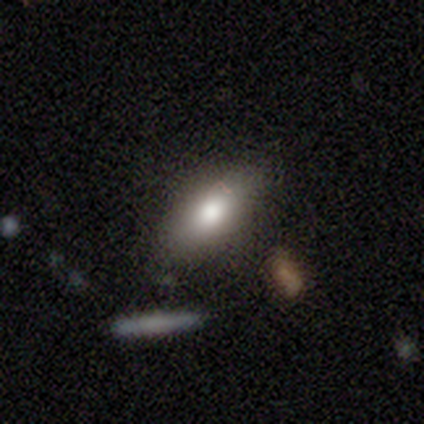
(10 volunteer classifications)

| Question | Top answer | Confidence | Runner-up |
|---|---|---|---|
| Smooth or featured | smooth | 90% | star or artifact (10%) |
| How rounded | in between | 67% | cigar-shaped (22%) |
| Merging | none | 67% | minor disturbance (33%) |